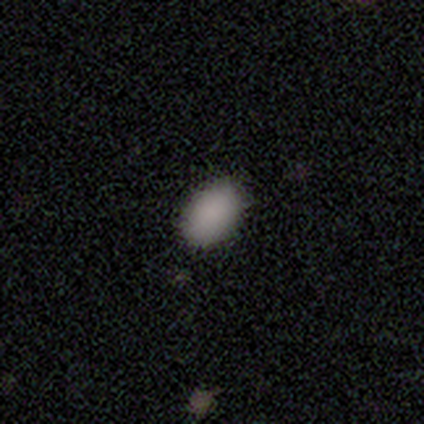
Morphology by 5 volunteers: Smooth or featured? 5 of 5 (100%) said smooth. How rounded? 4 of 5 (80%) said in between. Merging? 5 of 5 (100%) said none.